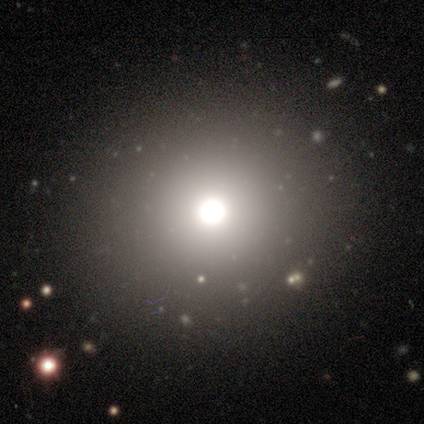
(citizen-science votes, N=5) smooth_or_featured: smooth (p=0.60) [alt: featured or disk p=0.20]
how_rounded: round (p=1.00)
merging: none (p=1.00)